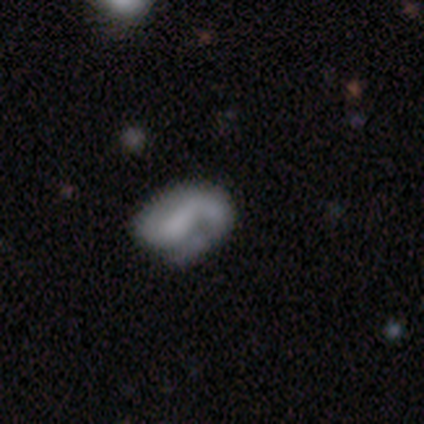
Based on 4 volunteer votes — smooth 50% (tied), featured or disk 50% (tied), star or artifact 0%. Down the decision tree: how rounded — round (100%); merging — none (100%).